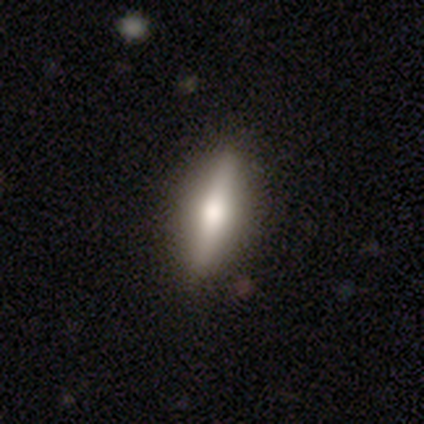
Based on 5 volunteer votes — smooth 80%, star or artifact 20%, featured or disk 0%. Down the decision tree: how rounded — cigar-shaped (75%); merging — none (75%).